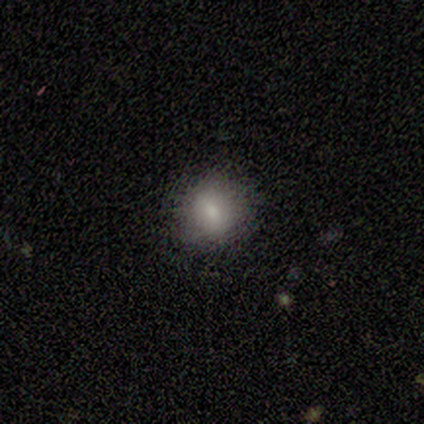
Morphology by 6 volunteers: This is clearly a smooth galaxy (100%). How rounded: clearly round (100%). Merging: clearly none (100%).